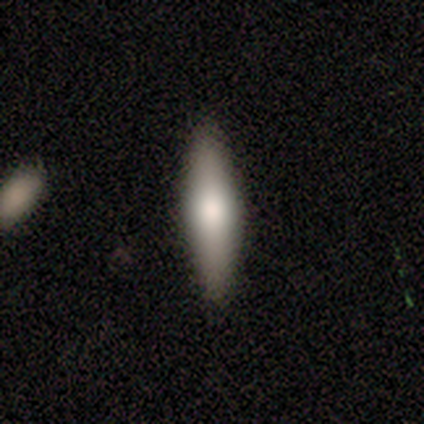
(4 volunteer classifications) Volunteers were most divided on "edge-on disk": yes: 67%, no: 33%. More confident: edge-on bulge — rounded (100%); merging — none (100%); smooth or featured — featured or disk (75%).